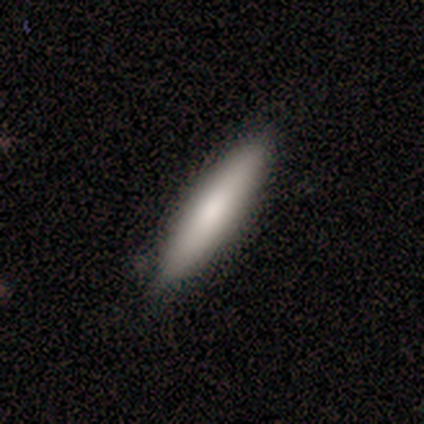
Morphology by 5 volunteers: smooth-or-featured: smooth: 100% | featured or disk: 0% | star or artifact: 0%
  how-rounded: cigar-shaped: 60% | in between: 40% | round: 0%
  merging: none: 80% | minor disturbance: 20% | major disturbance: 0% | merger: 0%